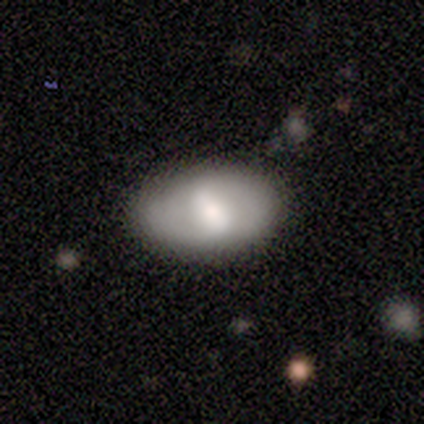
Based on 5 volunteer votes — A smooth galaxy with no disk features (60%) that is in between round and cigar-shaped (100%).

Vote fractions:
- Smooth or featured? smooth: 60% / featured or disk: 20% / star or artifact: 20%
- How rounded? in between: 100% / round: 0% / cigar-shaped: 0%
- Merging? none: 75% / minor disturbance: 25% / major disturbance: 0% / merger: 0%